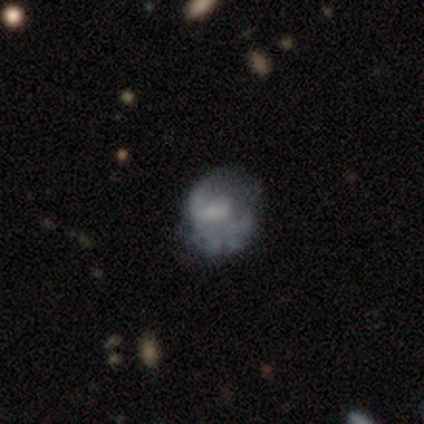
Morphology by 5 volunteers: Smooth or featured?
  - featured or disk: 60% *
  - smooth: 40%
  - star or artifact: 0%
Edge-on disk?
  - no: 100% *
  - yes: 0%
Bar?
  - no: 67% *
  - weak: 33%
  - strong: 0%
Spiral arms?
  - yes: 67% *
  - no: 33%
Spiral winding?
  - medium: 100% *
  - tight: 0%
  - loose: 0%
Spiral arm count?
  - 1: 50% * (tied)
  - 2: 50% * (tied)
  - 3: 0%
  - 4: 0%
  - more than 4: 0%
  - can't tell: 0%
Bulge size?
  - small: 67% *
  - none: 33%
  - dominant: 0%
  - large: 0%
  - moderate: 0%
Merging?
  - none: 40% * (tied)
  - minor disturbance: 40% * (tied)
  - major disturbance: 20%
  - merger: 0%